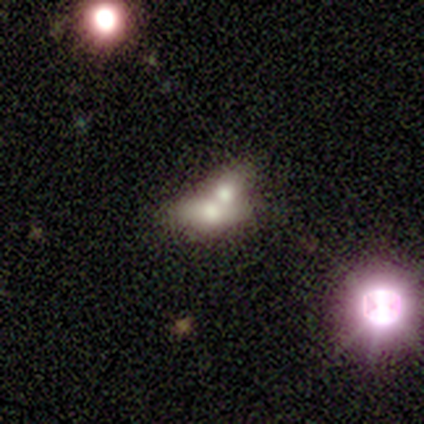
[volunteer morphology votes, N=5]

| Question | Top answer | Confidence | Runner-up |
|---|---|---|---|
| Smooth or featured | smooth | 60% | featured or disk (20%) |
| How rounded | in between | 67% | cigar-shaped (33%) |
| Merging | merger | 75% | none (25%) |